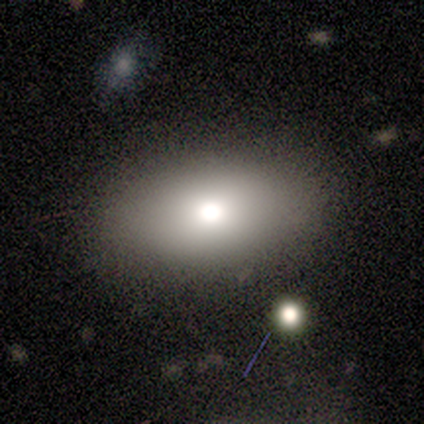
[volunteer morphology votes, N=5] Q: Smooth or featured?
A: smooth (80%); runner-up: featured or disk (20%)
Q: How rounded?
A: round (50%); tied with: in between (50%)
Q: Merging?
A: none (80%); runner-up: minor disturbance (20%)